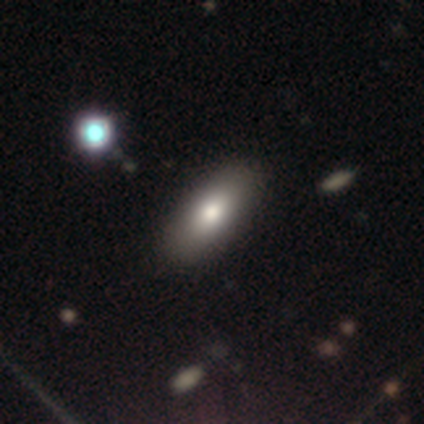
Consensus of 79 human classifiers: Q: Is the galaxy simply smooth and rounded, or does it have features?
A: smooth — 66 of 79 (84%).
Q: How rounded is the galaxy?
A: in between — 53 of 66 (80%).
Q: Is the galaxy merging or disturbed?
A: none — 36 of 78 (46%).